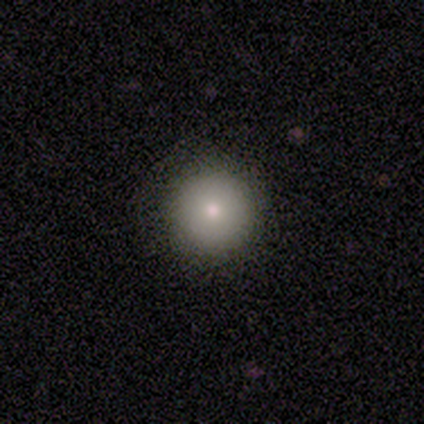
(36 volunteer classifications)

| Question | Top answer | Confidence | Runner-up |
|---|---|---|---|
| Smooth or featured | smooth | 69% | featured or disk (19%) |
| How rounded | round | 100% | — |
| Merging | none | 97% | minor disturbance (3%) |